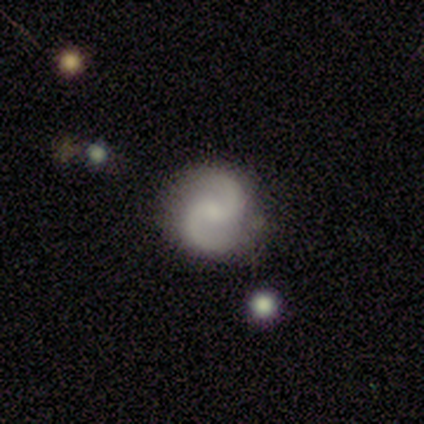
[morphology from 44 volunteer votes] Smooth or featured?
  - featured or disk: 91% *
  - smooth: 9%
  - star or artifact: 0%
Edge-on disk?
  - no: 100% *
  - yes: 0%
Bar?
  - no: 55% *
  - weak: 40%
  - strong: 5%
Spiral arms?
  - yes: 98% *
  - no: 2%
Spiral winding?
  - medium: 62% *
  - loose: 26%
  - tight: 13%
Spiral arm count?
  - 2: 100% *
  - 1: 0%
  - 3: 0%
  - 4: 0%
  - more than 4: 0%
  - can't tell: 0%
Bulge size?
  - small: 45% *
  - none: 38%
  - moderate: 15%
  - large: 2%
  - dominant: 0%
Merging?
  - none: 86% *
  - minor disturbance: 11%
  - major disturbance: 2%
  - merger: 0%